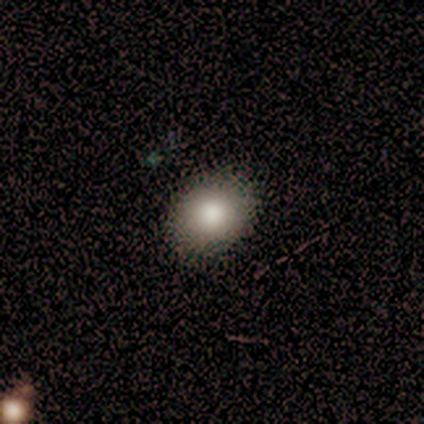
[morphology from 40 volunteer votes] Smooth or featured? smooth (85%)
How rounded? round (50%, tied with in between)
Merging? none (85%)